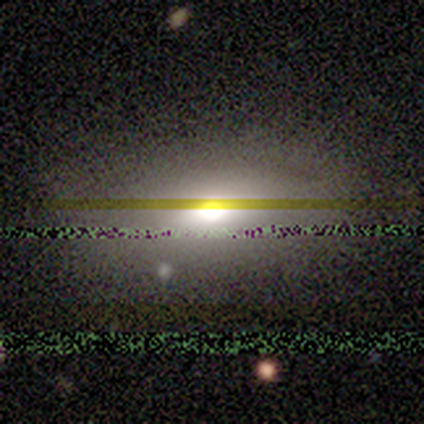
Overall: smooth (60%; star or artifact 40%). How rounded: in between (67%; round 33%). Merging: none (67%; merger 33%).